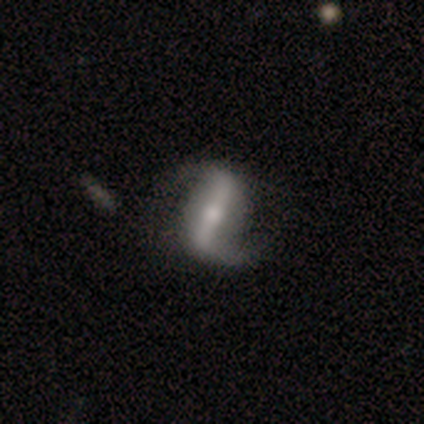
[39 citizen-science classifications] Overall: featured or disk (85%). Edge-on disk: no (91%). Bar: strong (83%). Spiral arms: yes (93%). Spiral arm count: 2 (96%). Spiral winding: loose (71%). Bulge size: small (47%; moderate 43%). Merging: none (74%).